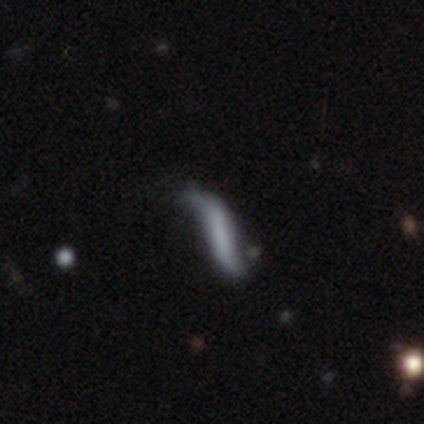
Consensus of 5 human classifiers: smooth-or-featured: smooth: 60% | featured or disk: 40% | star or artifact: 0%
  how-rounded: cigar-shaped: 67% | in between: 33% | round: 0%
  merging: minor disturbance: 80% | none: 20% | major disturbance: 0% | merger: 0%